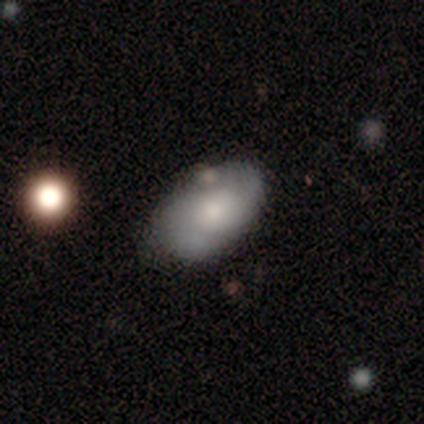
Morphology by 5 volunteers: type=smooth (100%); roundness=in between (80%); merging=none (80%).